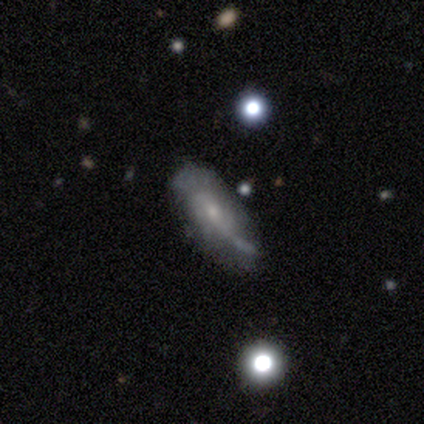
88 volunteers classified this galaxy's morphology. smooth_or_featured: featured or disk (p=0.73) [alt: smooth p=0.22]
disk_edge_on: no (p=0.77) [alt: yes p=0.23]
bar: no (p=0.57) [alt: weak p=0.35]
has_spiral_arms: yes (p=0.71) [alt: no p=0.29]
spiral_winding: loose (p=0.43) [alt: tight p=0.29]
spiral_arm_count: can't tell (p=0.40) [alt: 2 p=0.31]
bulge_size: small (p=0.78) [alt: moderate p=0.14]
merging: none (p=0.45) [alt: minor disturbance p=0.36]